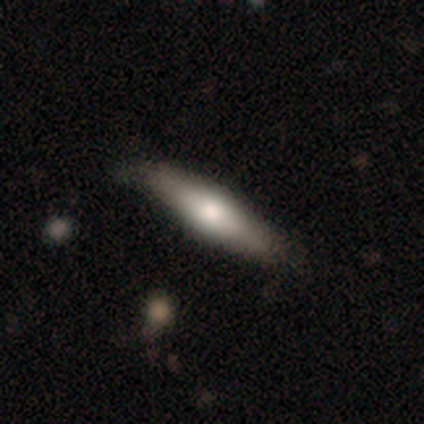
A smooth galaxy with no disk features (80%) that is cigar-shaped (100%). Merging: none (60%).